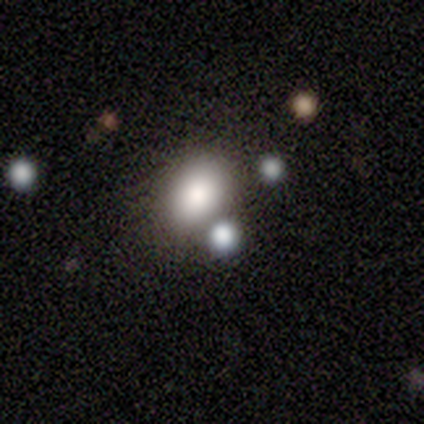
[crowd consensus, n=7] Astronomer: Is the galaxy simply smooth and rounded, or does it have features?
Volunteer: smooth — 100%.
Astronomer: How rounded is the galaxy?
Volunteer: in between — 57% (runner-up: round, 43%).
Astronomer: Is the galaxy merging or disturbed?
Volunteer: none — 100%.